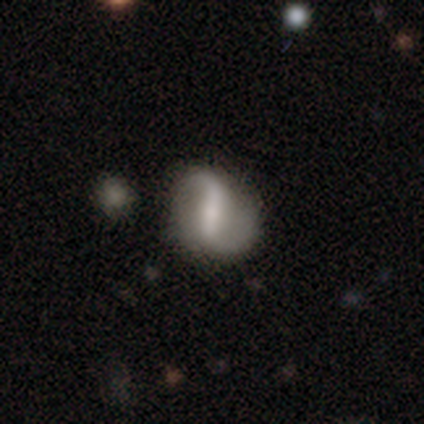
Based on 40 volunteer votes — Smooth or featured: featured or disk — 85% (smooth — 15%)
Edge-on disk: no — 97% (yes — 3%)
Bar: strong — 64% (weak — 30%)
Spiral arms: yes — 91% (no — 9%)
Spiral winding: loose — 70% (medium — 27%)
Spiral arm count: 2 — 90% (1 — 7%)
Bulge size: moderate — 33% (tied with small — 33%)
Merging: none — 72% (minor disturbance — 15%)